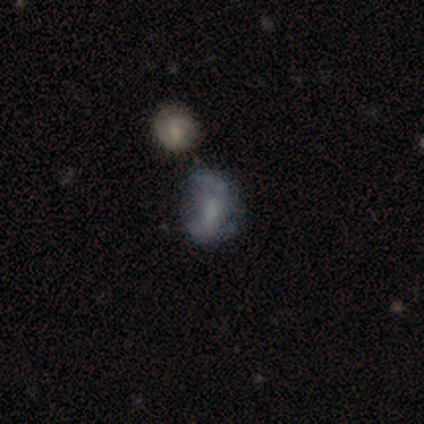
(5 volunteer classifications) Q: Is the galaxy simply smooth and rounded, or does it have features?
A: featured or disk — 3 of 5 (60%).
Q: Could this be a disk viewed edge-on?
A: no — 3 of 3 (100%).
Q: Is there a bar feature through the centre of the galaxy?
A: weak — 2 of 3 (67%).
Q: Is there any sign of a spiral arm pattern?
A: yes — 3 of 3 (100%).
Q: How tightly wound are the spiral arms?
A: tight — 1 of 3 (33%, tied with medium and loose).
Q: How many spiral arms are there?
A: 2 — 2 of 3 (67%).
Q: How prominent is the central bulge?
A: small — 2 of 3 (67%).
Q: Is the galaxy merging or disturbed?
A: minor disturbance — 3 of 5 (60%).